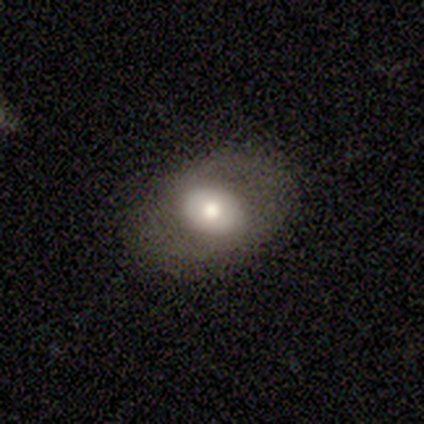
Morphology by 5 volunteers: Overall: featured or disk (60%; smooth 40%). Edge-on disk: no (100%). Bar: no (67%; strong 33%). Spiral arms: yes (67%; no 33%). Spiral arm count: 2 (100%). Spiral winding: tight (50%, tied with loose). Bulge size: dominant (33%, tied with moderate and small). Merging: none (60%; minor disturbance 40%).